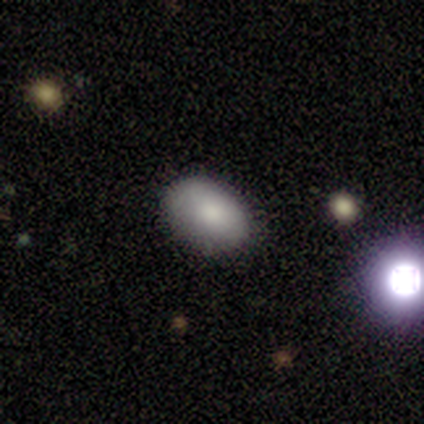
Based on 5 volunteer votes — Morphology: type=smooth (60%); roundness=in between (67%); merging=none (80%).